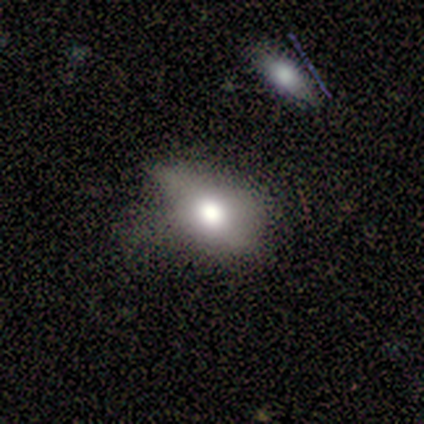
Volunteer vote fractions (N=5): smooth-or-featured: smooth: 80% | featured or disk: 20% | star or artifact: 0%
  how-rounded: in between: 75% | round: 25% | cigar-shaped: 0%
  merging: none: 40% (tied) | minor disturbance: 40% (tied) | major disturbance: 20% | merger: 0%